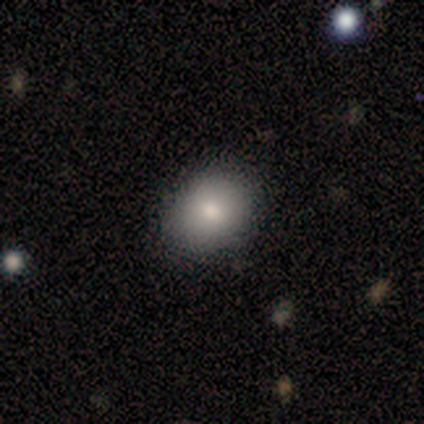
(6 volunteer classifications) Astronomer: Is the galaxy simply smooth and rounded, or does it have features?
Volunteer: smooth — 100%.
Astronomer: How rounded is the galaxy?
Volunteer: round — 67%.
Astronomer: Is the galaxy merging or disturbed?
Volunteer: none — 67%.